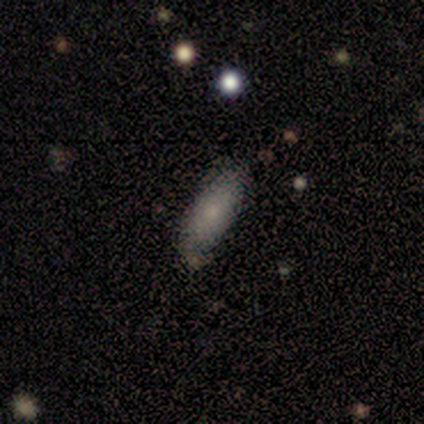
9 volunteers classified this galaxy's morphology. Smooth or featured?
  - smooth: 100% *
  - featured or disk: 0%
  - star or artifact: 0%
How rounded?
  - in between: 89% *
  - cigar-shaped: 11%
  - round: 0%
Merging?
  - none: 89% *
  - minor disturbance: 11%
  - major disturbance: 0%
  - merger: 0%